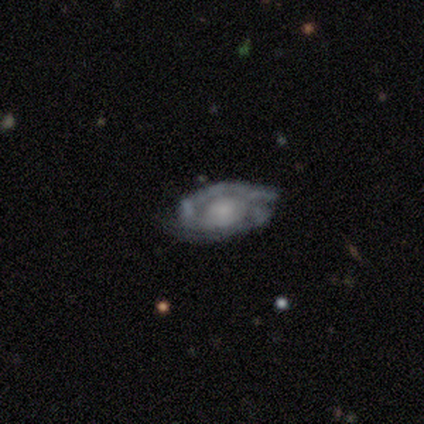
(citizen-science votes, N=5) Smooth or featured? featured or disk (80%)
Edge-on disk? no (75%)
Bar? no (100%)
Spiral arms? yes (100%)
Spiral winding? tight (67%)
Spiral arm count? 2 (67%)
Bulge size? none (67%)
Merging? none (75%)